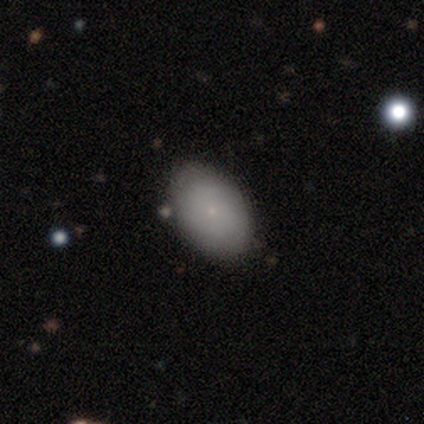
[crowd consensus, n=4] Q: Smooth or featured?
A: smooth (75%); runner-up: featured or disk (25%)
Q: How rounded?
A: in between (67%); runner-up: round (33%)
Q: Merging?
A: none (100%)